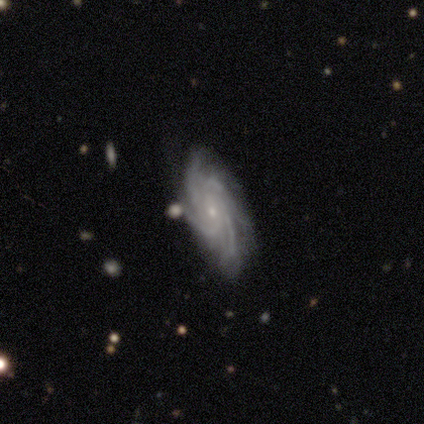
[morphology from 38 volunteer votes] featured or disk 95%, smooth 5%, star or artifact 0%. Down the decision tree: edge-on disk — no (97%); bar — no (89%); spiral arms — yes (100%); spiral arm count — 4 (63%); spiral winding — tight (49%); bulge size — small (91%); merging — none (79%).